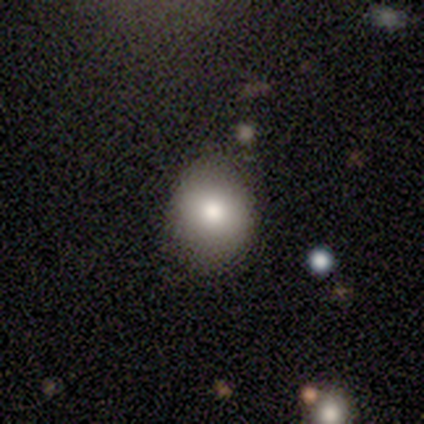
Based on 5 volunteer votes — Morphology: type=smooth (40%, tied with featured or disk); roundness=in between (100%); merging=none (75%).